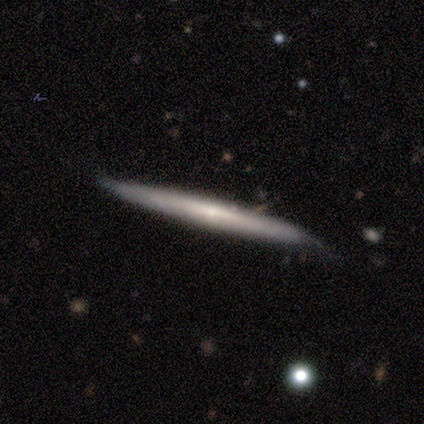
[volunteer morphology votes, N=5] A featured or disk galaxy (100%) viewed edge-on (100%) with a rounded central bulge (60%).

Vote fractions:
- Smooth or featured? featured or disk: 100% / smooth: 0% / star or artifact: 0%
- Edge-on disk? yes: 100% / no: 0%
- Edge-on bulge? rounded: 60% / none: 40% / boxy: 0%
- Merging? none: 60% / minor disturbance: 20% / major disturbance: 20% / merger: 0%